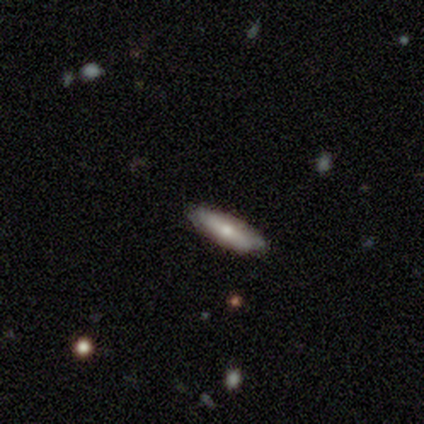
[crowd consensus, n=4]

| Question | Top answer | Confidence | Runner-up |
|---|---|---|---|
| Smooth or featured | smooth | 75% | featured or disk (25%) |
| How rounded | in between | 67% | cigar-shaped (33%) |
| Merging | none | 50% | minor disturbance (25%) |